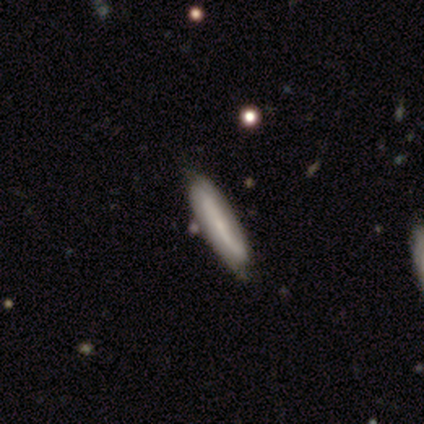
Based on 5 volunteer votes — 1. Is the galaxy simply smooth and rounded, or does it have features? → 80% featured or disk, 20% smooth, 0% star or artifact.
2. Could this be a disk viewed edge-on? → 100% no, 0% yes.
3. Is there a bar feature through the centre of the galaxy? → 100% no, 0% strong, 0% weak.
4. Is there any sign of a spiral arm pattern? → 75% yes, 25% no.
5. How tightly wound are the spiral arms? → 67% tight, 33% loose, 0% medium.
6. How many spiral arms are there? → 67% 2, 33% can't tell, 0% 1, 0% 3, 0% 4, 0% more than 4.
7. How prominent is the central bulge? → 25% dominant (tied), 25% moderate (tied), 25% small (tied), 25% none (tied), 0% large.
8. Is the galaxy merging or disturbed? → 80% none, 20% minor disturbance, 0% major disturbance, 0% merger.